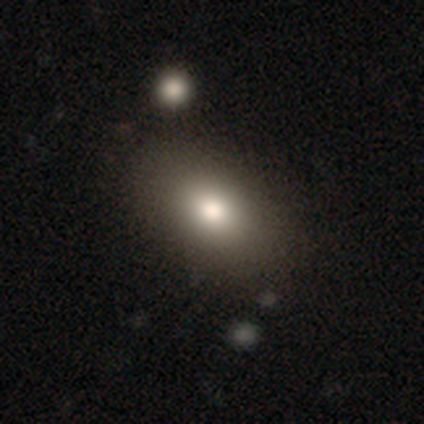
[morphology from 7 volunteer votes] smooth-or-featured: smooth: 86% | featured or disk: 14% | star or artifact: 0%
  how-rounded: in between: 100% | round: 0% | cigar-shaped: 0%
  merging: none: 86% | minor disturbance: 14% | major disturbance: 0% | merger: 0%